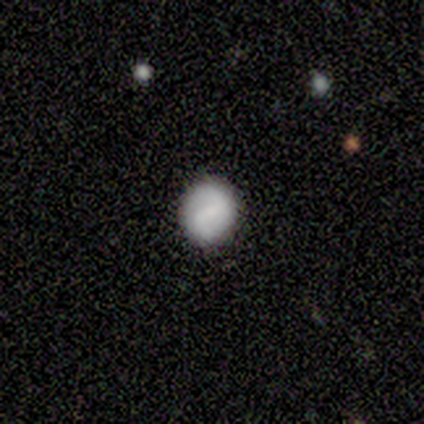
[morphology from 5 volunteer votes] This appears to be a featured or disk galaxy (40%, tied with star or artifact) with a weak bar (100%), 2 (100%) medium (50%, tied with loose) spiral arms (100%) and a small central bulge (100%). Merging: none (100%).